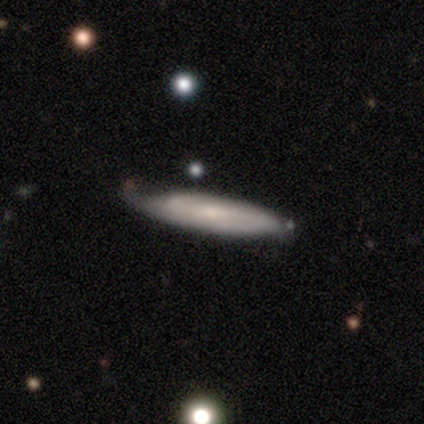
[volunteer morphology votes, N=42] Smooth or featured: featured or disk — 60% (smooth — 40%)
Edge-on disk: no — 52% (yes — 48%)
Bar: no — 62% (weak — 23%)
Spiral arms: yes — 77% (no — 23%)
Spiral winding: tight — 60% (medium — 30%)
Spiral arm count: can't tell — 60% (2 — 40%)
Bulge size: small — 77% (moderate — 15%)
Merging: none — 57% (minor disturbance — 33%)